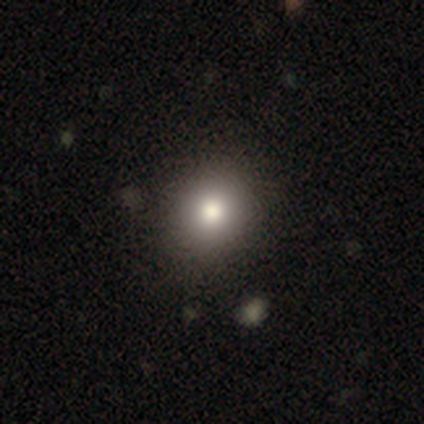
Volunteers were most divided on "how rounded": round: 60%, in between: 40%, cigar-shaped: 0%. More confident: merging — none (89%); smooth or featured — smooth (75%).